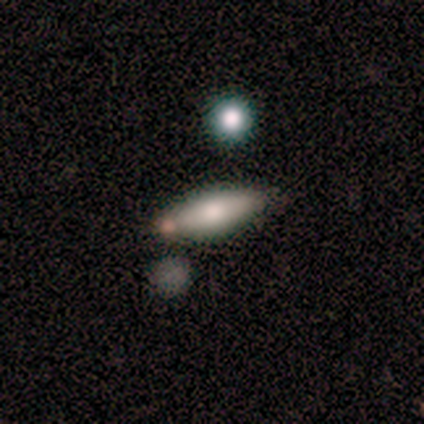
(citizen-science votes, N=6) A smooth galaxy with no disk features (67%) that is in between round and cigar-shaped (50%, tied with cigar-shaped). Merging: none (83%).